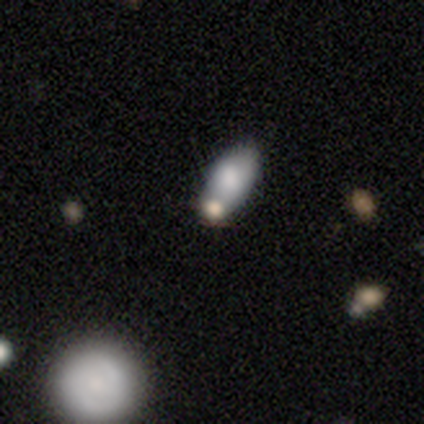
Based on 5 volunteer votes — This is likely a star or artifact rather than a galaxy (60%).